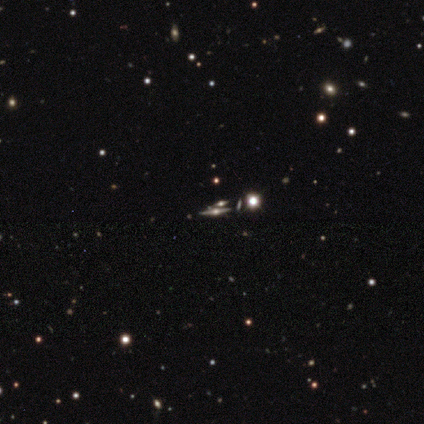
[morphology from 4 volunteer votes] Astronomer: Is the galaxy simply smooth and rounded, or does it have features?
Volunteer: featured or disk — 75%.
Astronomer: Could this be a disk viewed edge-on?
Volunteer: yes — 67%.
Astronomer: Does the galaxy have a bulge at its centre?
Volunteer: rounded — 100%.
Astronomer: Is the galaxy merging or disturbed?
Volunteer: none — 67%.